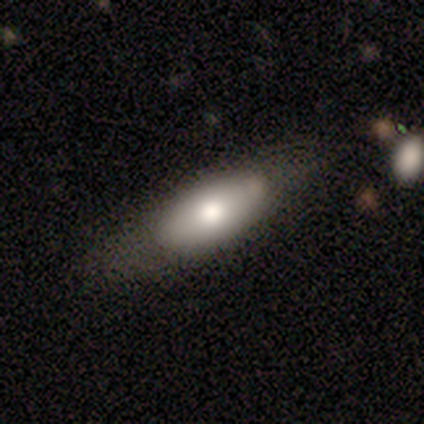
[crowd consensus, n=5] Morphology: type=smooth (60%); roundness=in between (100%); merging=minor disturbance (60%).